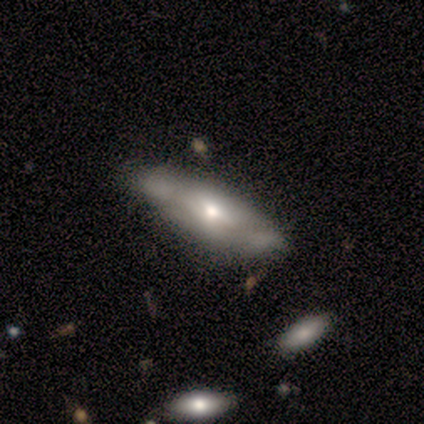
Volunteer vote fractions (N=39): smooth 51%, featured or disk 44%, star or artifact 5%. Down the decision tree: how rounded — in between (55%); merging — none (62%).